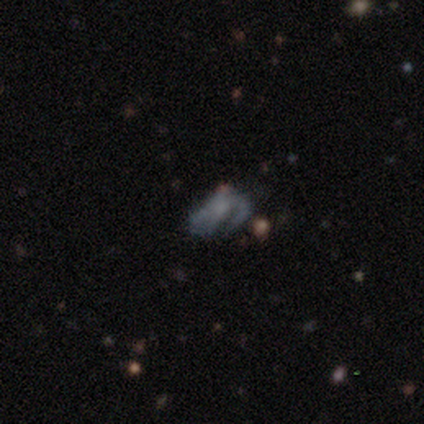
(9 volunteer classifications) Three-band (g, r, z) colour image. It shows a featured or disk galaxy (78%) with no bar (100%), 1 (50%) medium (50%, tied with loose) spiral arms (57%) and no central bulge (71%). Merging: none (50%).